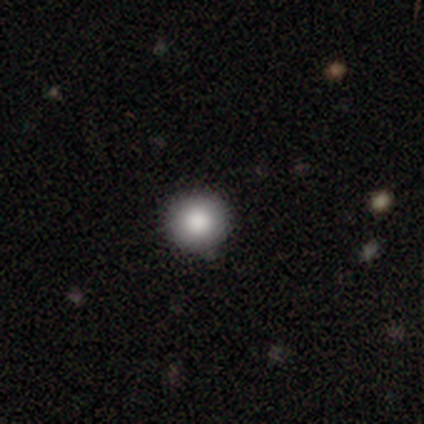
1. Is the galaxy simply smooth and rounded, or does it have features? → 100% smooth, 0% featured or disk, 0% star or artifact.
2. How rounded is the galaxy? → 100% round, 0% in between, 0% cigar-shaped.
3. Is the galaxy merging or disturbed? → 100% none, 0% minor disturbance, 0% major disturbance, 0% merger.